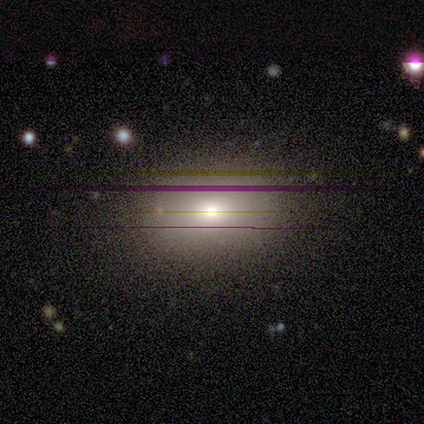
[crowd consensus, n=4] Volunteers were most divided on "smooth or featured": smooth: 75%, star or artifact: 25%, featured or disk: 0%. More confident: how rounded — in between (100%); merging — none (100%).